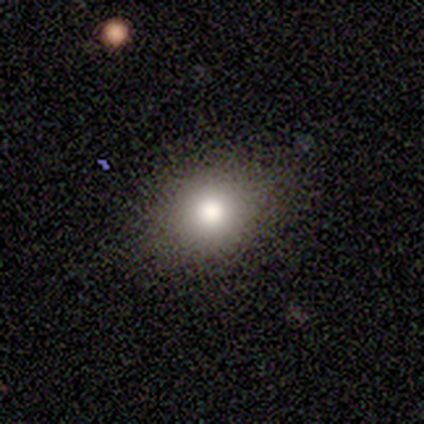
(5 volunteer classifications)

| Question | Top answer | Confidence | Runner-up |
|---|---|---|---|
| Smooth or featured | smooth | 80% | featured or disk (20%) |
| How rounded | round | 75% | in between (25%) |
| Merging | none | 80% | minor disturbance (20%) |